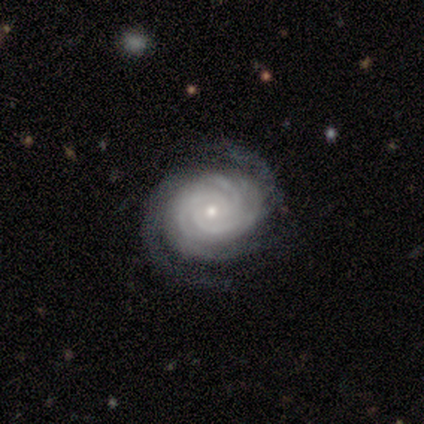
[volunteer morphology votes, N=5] Overall: featured or disk (100%). Edge-on disk: no (100%). Bar: no (100%). Spiral arms: yes (100%). Spiral arm count: 3 (60%; more than 4 20%). Spiral winding: tight (100%). Bulge size: small (100%). Merging: none (80%).